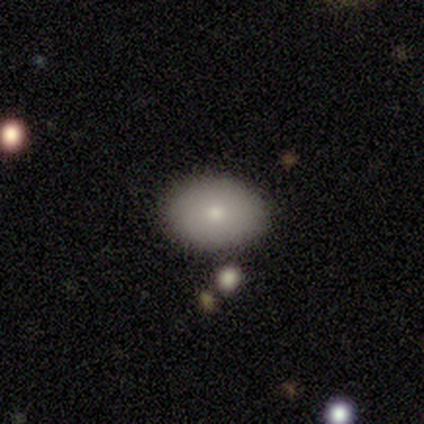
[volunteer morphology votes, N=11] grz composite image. It shows a smooth galaxy with no disk features (73%) that is round (62%). Merging: none (90%).